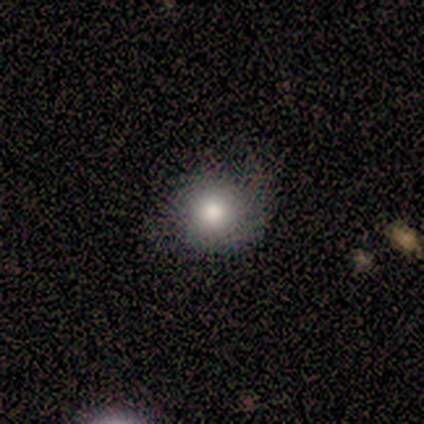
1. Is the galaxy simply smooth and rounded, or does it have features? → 80% smooth, 10% featured or disk, 10% star or artifact.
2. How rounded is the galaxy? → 88% round, 12% in between, 0% cigar-shaped.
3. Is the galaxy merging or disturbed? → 56% minor disturbance, 33% none, 11% major disturbance, 0% merger.